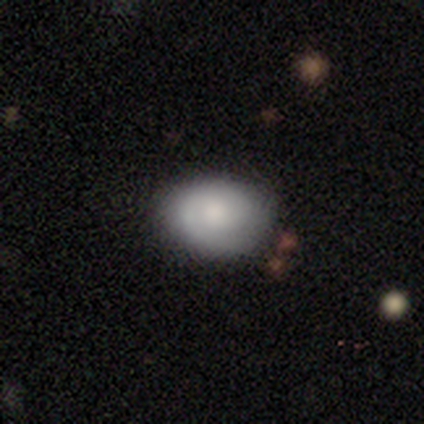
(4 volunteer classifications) Smooth or featured? featured or disk (50%)
Edge-on disk? no (100%)
Bar? weak (50%, tied with no)
Spiral arms? yes (100%)
Spiral winding? tight (50%, tied with medium)
Spiral arm count? 1 (50%, tied with 2)
Bulge size? large (50%, tied with moderate)
Merging? none (67%)